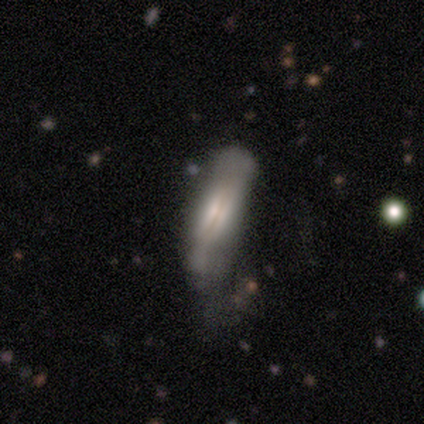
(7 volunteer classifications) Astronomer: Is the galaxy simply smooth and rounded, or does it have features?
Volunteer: featured or disk — 86%.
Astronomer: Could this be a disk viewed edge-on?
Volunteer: yes — 83%.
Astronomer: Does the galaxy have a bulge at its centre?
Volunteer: boxy — 40%, tied with none at 40%.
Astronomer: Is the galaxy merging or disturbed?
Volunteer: none — 57%.